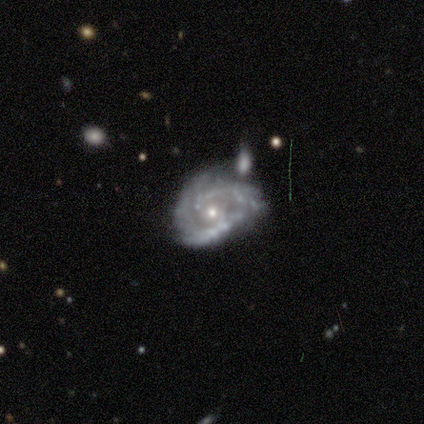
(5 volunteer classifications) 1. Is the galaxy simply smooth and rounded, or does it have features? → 100% featured or disk, 0% smooth, 0% star or artifact.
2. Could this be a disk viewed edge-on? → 100% no, 0% yes.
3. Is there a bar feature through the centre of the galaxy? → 80% no, 20% weak, 0% strong.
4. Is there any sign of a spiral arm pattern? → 100% yes, 0% no.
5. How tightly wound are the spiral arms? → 60% tight, 20% medium, 20% loose.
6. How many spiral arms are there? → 60% can't tell, 20% 2, 20% 3, 0% 1, 0% 4, 0% more than 4.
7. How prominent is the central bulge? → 60% moderate, 40% small, 0% dominant, 0% large, 0% none.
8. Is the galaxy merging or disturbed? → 60% minor disturbance, 40% none, 0% major disturbance, 0% merger.